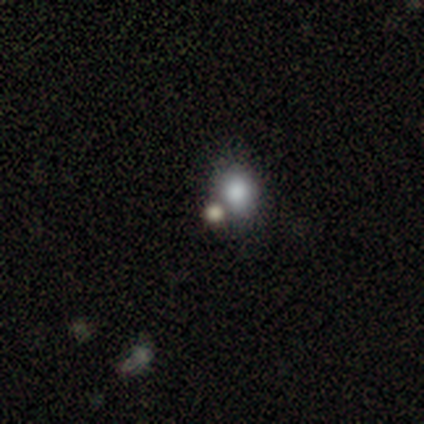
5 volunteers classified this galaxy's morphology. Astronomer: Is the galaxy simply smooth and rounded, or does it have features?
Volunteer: smooth — 80%.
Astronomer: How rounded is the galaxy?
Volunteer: round — 100%.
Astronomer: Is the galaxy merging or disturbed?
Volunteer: none — 40% (runner-up: minor disturbance, 20%).